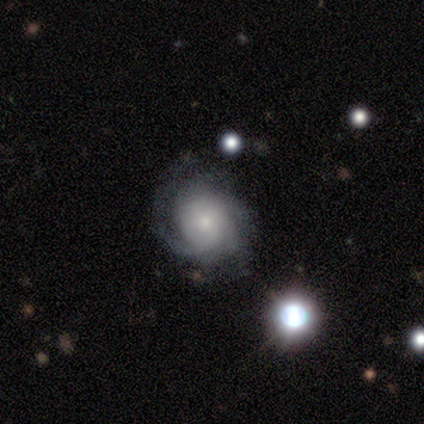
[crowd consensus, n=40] Smooth or featured? featured or disk (72%)
Edge-on disk? no (100%)
Bar? no (90%)
Spiral arms? yes (93%)
Spiral winding? tight (74%)
Spiral arm count? can't tell (59%)
Bulge size? small (52%)
Merging? none (57%)